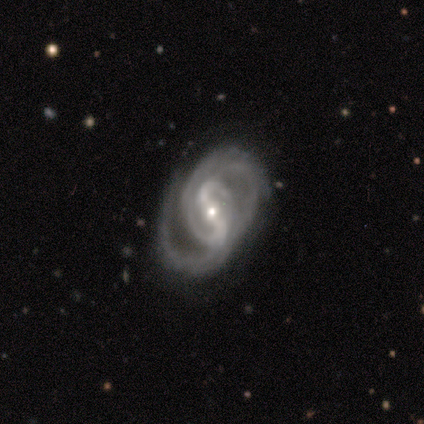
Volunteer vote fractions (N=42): Q: Smooth or featured?
A: featured or disk (88%); runner-up: star or artifact (7%)
Q: Edge-on disk?
A: no (97%); runner-up: yes (3%)
Q: Bar?
A: strong (64%); runner-up: weak (28%)
Q: Spiral arms?
A: yes (100%)
Q: Spiral winding?
A: tight (50%); runner-up: medium (33%)
Q: Spiral arm count?
A: 2 (67%); runner-up: 3 (14%)
Q: Bulge size?
A: small (61%); runner-up: moderate (39%)
Q: Merging?
A: none (69%); runner-up: minor disturbance (23%)